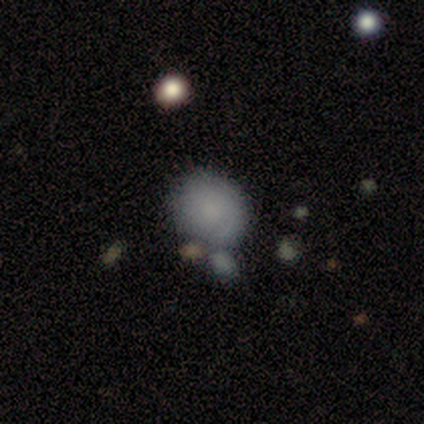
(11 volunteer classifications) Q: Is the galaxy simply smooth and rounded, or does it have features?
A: smooth — 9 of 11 (82%).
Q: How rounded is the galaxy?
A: round — 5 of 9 (56%).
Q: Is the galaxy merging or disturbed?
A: none — 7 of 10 (70%).